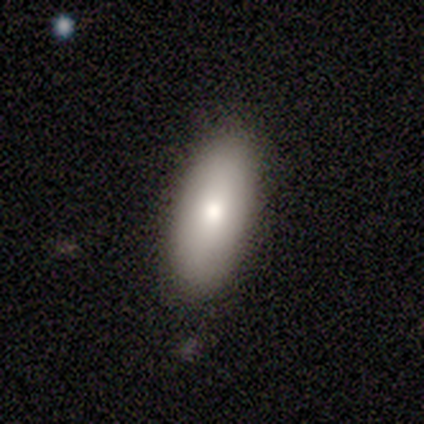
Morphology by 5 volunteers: Q: Smooth or featured?
A: smooth (100%)
Q: How rounded?
A: in between (100%)
Q: Merging?
A: none (100%)